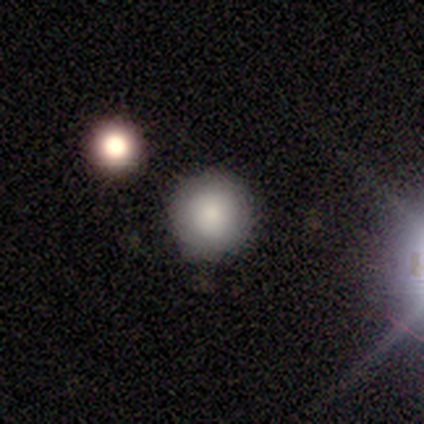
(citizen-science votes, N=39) A smooth galaxy with no disk features (69%) that is round (93%). Merging: none (91%).